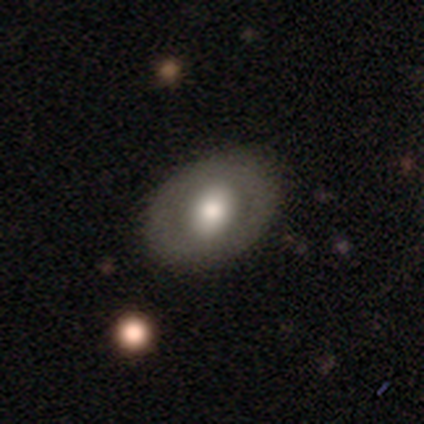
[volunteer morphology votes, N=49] smooth_or_featured: smooth (p=0.71) [alt: featured or disk p=0.24]
how_rounded: in between (p=0.71) [alt: round p=0.26]
merging: none (p=0.81) [alt: minor disturbance p=0.15]